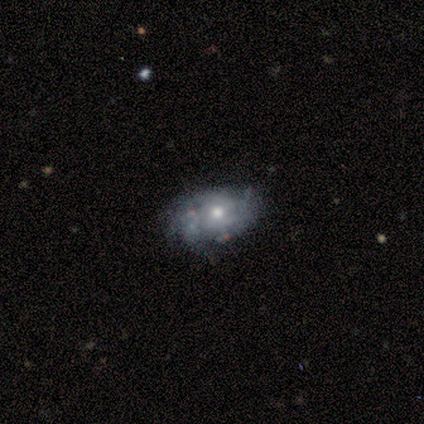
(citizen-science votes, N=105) featured or disk 59%, smooth 33%, star or artifact 8%. Down the decision tree: edge-on disk — no (97%); bar — no (90%); spiral arms — yes (72%); spiral arm count — can't tell (56%); spiral winding — tight (58%); bulge size — moderate (80%); merging — none (68%).